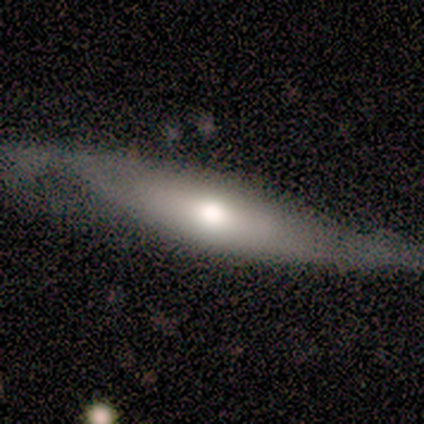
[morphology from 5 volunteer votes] smooth-or-featured: smooth: 80% | featured or disk: 20% | star or artifact: 0%
  how-rounded: in between: 50% (tied) | cigar-shaped: 50% (tied) | round: 0%
  merging: none: 60% | minor disturbance: 20% | major disturbance: 20% | merger: 0%